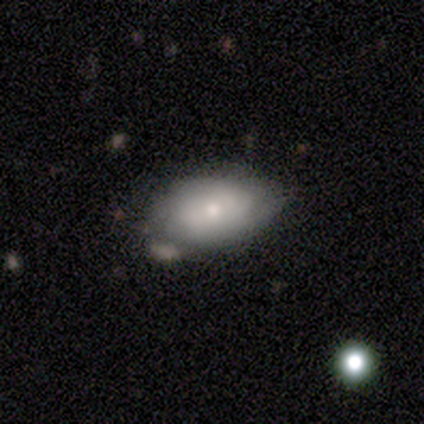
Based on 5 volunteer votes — Volunteers were most divided on "smooth or featured" (2-way tie): smooth: 40%, featured or disk: 40%, star or artifact: 20%. More confident: how rounded — in between (100%); merging — none (50%).